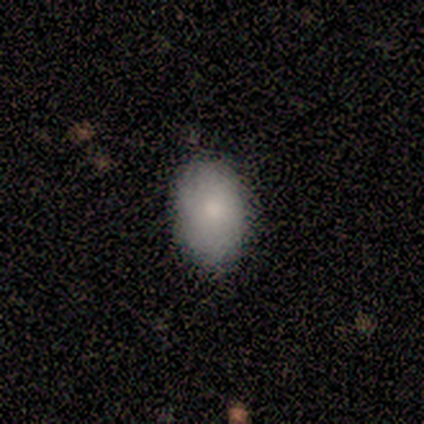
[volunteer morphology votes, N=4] type=smooth (50%); roundness=in between (100%); merging=none (100%).